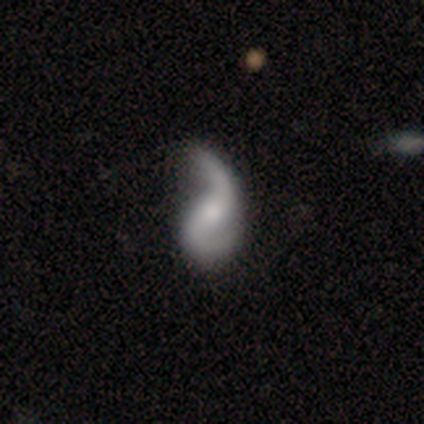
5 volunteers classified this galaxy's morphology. This is clearly a featured or disk galaxy (80%). It is clearly not viewed edge-on (100%). Bar: likely no (75%). Spiral arm pattern: clearly yes (100%). Spiral arm count: likely 2 (75%). Spiral winding: likely loose (75%). Central bulge: likely moderate (75%). Merging: likely minor disturbance (60%).